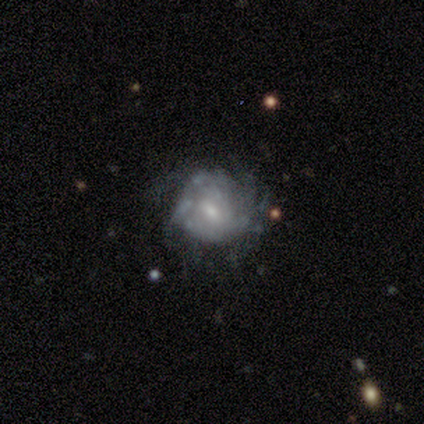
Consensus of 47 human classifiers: Smooth or featured?
  - featured or disk: 74% *
  - smooth: 15%
  - star or artifact: 11%
Edge-on disk?
  - no: 100% *
  - yes: 0%
Bar?
  - weak: 51% *
  - no: 46%
  - strong: 3%
Spiral arms?
  - yes: 77% *
  - no: 23%
Spiral winding?
  - tight: 63% *
  - medium: 26%
  - loose: 11%
Spiral arm count?
  - can't tell: 56% *
  - more than 4: 19%
  - 3: 11%
  - 2: 7%
  - 1: 4%
  - 4: 4%
Bulge size?
  - small: 57% *
  - moderate: 34%
  - large: 6%
  - none: 3%
  - dominant: 0%
Merging?
  - none: 43% *
  - minor disturbance: 33%
  - major disturbance: 19%
  - merger: 5%